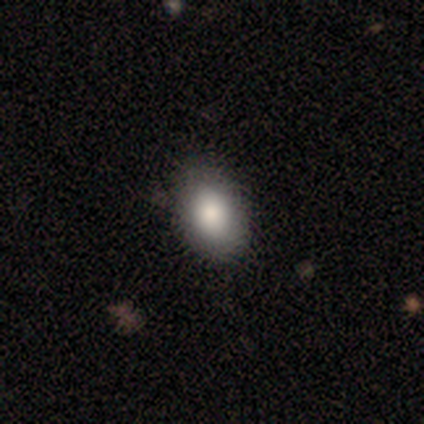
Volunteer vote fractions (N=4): Overall: smooth (75%). How rounded: in between (100%). Merging: none (100%).